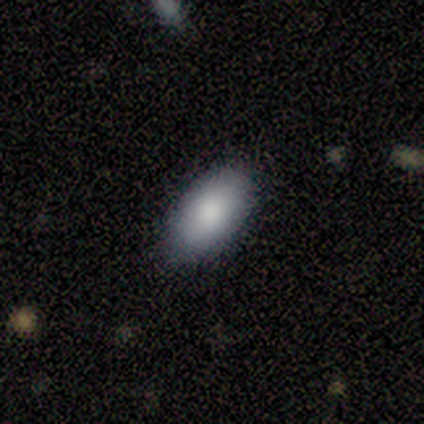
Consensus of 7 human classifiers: smooth_or_featured: smooth (p=0.71) [alt: featured or disk p=0.29]
how_rounded: in between (p=1.00)
merging: none (p=0.57) [alt: minor disturbance p=0.43]